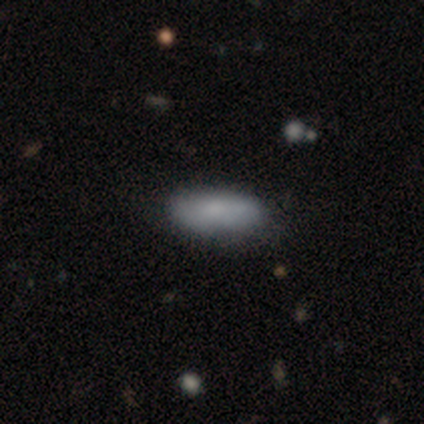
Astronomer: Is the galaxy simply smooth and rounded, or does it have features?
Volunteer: smooth — 80%.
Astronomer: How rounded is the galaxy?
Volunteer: in between — 75%.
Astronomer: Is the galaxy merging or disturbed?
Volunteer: none — 80%.